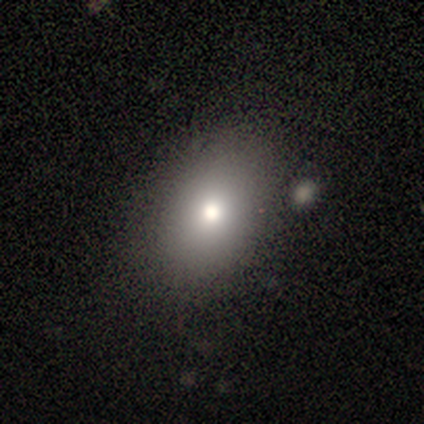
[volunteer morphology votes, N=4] smooth-or-featured: smooth: 75% | featured or disk: 25% | star or artifact: 0%
  how-rounded: in between: 100% | round: 0% | cigar-shaped: 0%
  merging: none: 50% | minor disturbance: 25% | merger: 25% | major disturbance: 0%